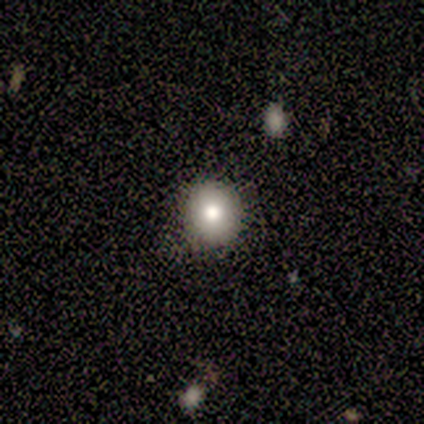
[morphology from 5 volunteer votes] smooth_or_featured: smooth (p=1.00)
how_rounded: round (p=1.00)
merging: none (p=0.80) [alt: minor disturbance p=0.20]